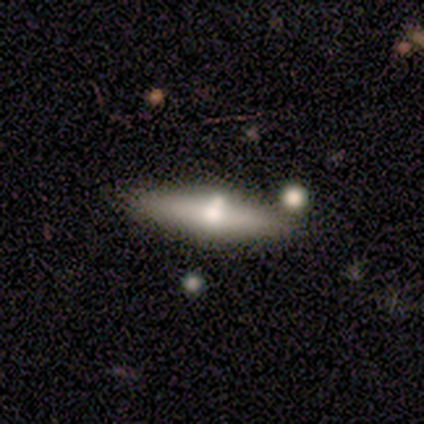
Volunteers were most divided on "merging": none: 50%, minor disturbance: 25%, merger: 25%, major disturbance: 0%. More confident: how rounded — cigar-shaped (67%); smooth or featured — smooth (60%).